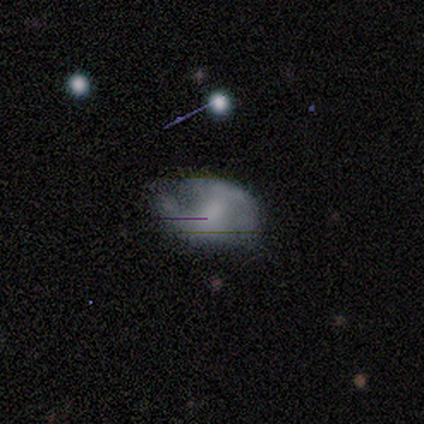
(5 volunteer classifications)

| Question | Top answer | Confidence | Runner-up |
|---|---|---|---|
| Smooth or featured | smooth | 80% | featured or disk (20%) |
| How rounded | in between | 75% | cigar-shaped (25%) |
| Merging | none | 80% | minor disturbance (20%) |